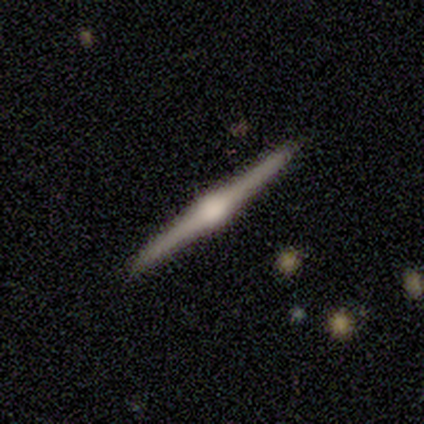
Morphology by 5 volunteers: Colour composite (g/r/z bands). It shows a featured or disk galaxy (80%) viewed edge-on (100%) with a rounded central bulge (100%). Merging: none (100%).